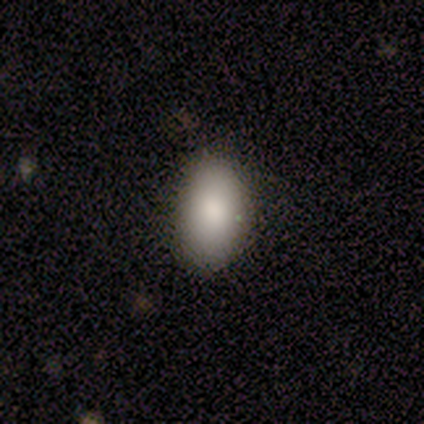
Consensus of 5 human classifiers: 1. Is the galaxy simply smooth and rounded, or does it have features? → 100% smooth, 0% featured or disk, 0% star or artifact.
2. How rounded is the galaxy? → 100% in between, 0% round, 0% cigar-shaped.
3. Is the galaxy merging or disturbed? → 60% none, 40% minor disturbance, 0% major disturbance, 0% merger.